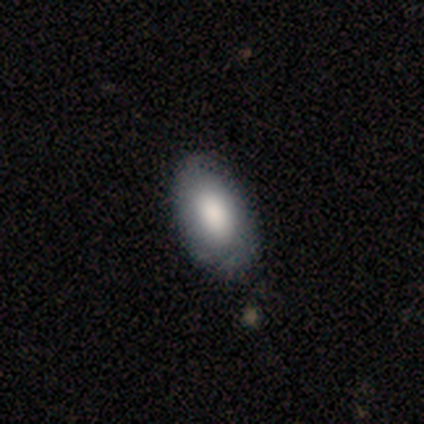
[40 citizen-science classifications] Smooth or featured: smooth — 85% (featured or disk — 12%)
How rounded: in between — 97% (round — 3%)
Merging: none — 59% (minor disturbance — 18%)